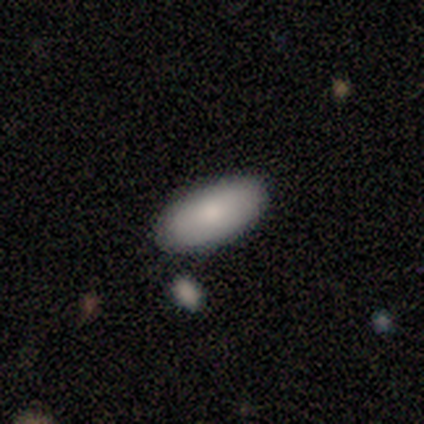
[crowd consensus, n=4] This appears to be a smooth galaxy with no disk features (100%) that is in between round and cigar-shaped (100%). Merging: none (75%).